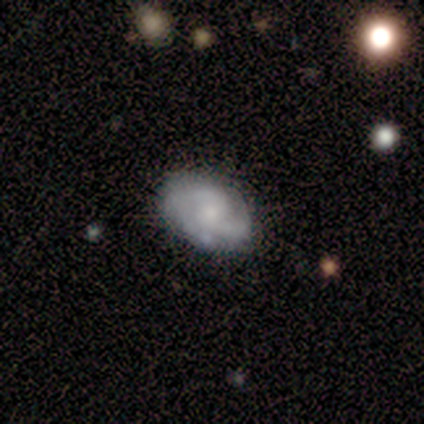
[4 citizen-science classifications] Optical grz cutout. It shows a smooth galaxy with no disk features (50%, tied with featured or disk) that is in between round and cigar-shaped (100%). Merging: none (75%).